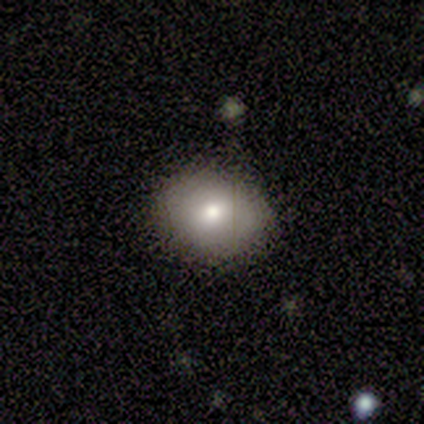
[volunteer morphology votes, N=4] This appears to be a smooth galaxy with no disk features (75%) that is round (67%). Merging: none (100%).